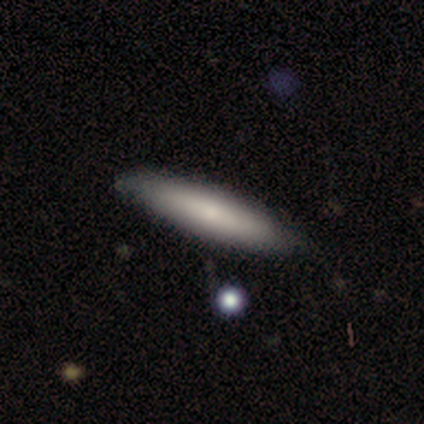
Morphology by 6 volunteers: type=smooth (100%); roundness=cigar-shaped (100%); merging=none (100%).